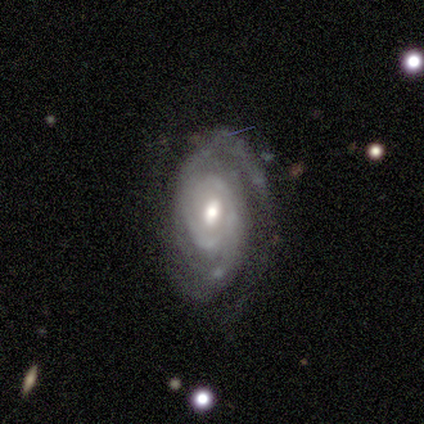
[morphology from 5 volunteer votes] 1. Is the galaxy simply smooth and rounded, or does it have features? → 100% featured or disk, 0% smooth, 0% star or artifact.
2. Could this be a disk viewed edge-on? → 100% no, 0% yes.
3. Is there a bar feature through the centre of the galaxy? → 60% weak, 20% strong, 20% no.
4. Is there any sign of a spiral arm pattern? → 100% yes, 0% no.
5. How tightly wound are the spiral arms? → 60% tight, 40% medium, 0% loose.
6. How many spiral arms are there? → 40% 2 (tied), 40% 3 (tied), 20% can't tell, 0% 1, 0% 4, 0% more than 4.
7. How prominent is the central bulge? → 80% moderate, 20% dominant, 0% large, 0% small, 0% none.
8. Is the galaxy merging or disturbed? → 80% none, 20% minor disturbance, 0% major disturbance, 0% merger.